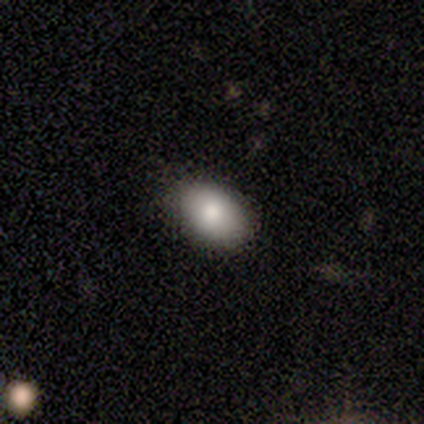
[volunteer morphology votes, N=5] Smooth or featured?
  - smooth: 80% *
  - featured or disk: 20%
  - star or artifact: 0%
How rounded?
  - in between: 100% *
  - round: 0%
  - cigar-shaped: 0%
Merging?
  - none: 80% *
  - minor disturbance: 20%
  - major disturbance: 0%
  - merger: 0%